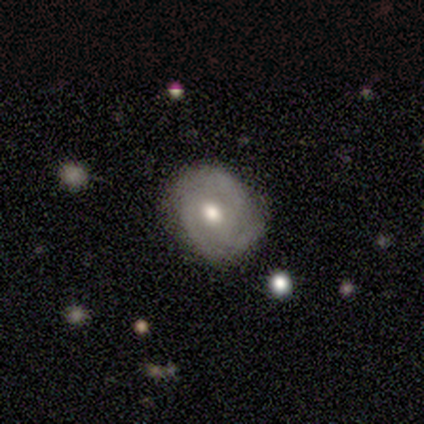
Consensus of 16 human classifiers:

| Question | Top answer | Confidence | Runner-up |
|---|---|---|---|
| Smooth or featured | featured or disk | 69% | smooth (31%) |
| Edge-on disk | no | 91% | yes (9%) |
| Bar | no | 80% | weak (20%) |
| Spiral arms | yes | 90% | no (10%) |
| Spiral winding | tight | 44% | tied: medium (44%) |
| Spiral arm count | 2 | 56% | 3 (44%) |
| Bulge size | moderate | 60% | small (20%) |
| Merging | none | 75% | minor disturbance (25%) |